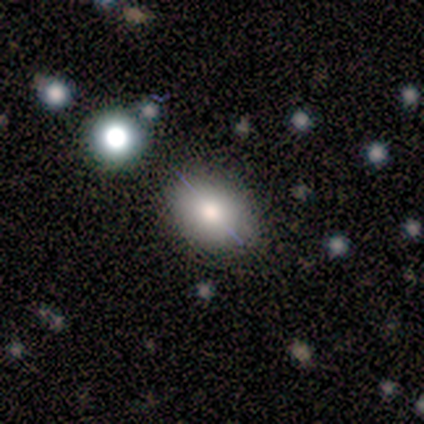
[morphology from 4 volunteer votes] This is possibly a smooth galaxy (50%, tied with featured or disk). How rounded: clearly in between (100%). Merging: likely none (75%).